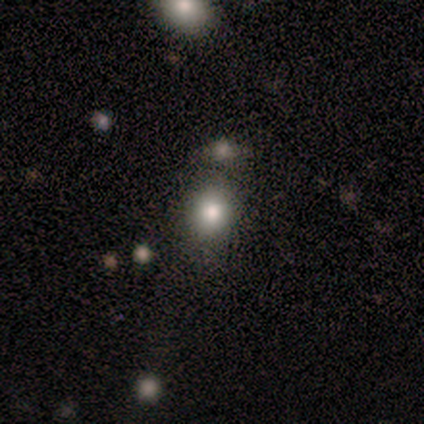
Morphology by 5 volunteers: This appears to be a star or artifact, not a galaxy (60%).